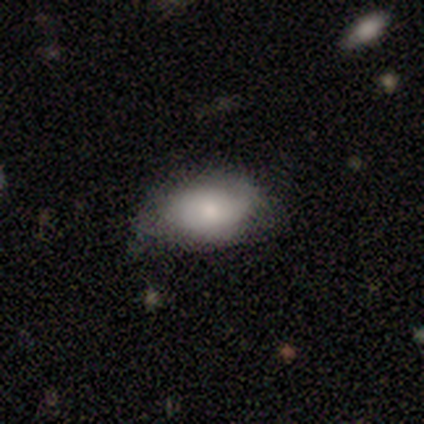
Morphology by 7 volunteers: This is clearly a smooth galaxy (86%). How rounded: clearly in between (100%). Merging: likely none (71%).